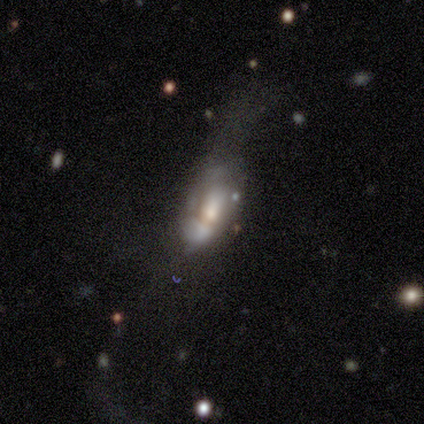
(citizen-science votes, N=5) Smooth or featured? 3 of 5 (60%) said smooth. How rounded? 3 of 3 (100%) said in between. Merging? 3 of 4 (75%) said major disturbance.